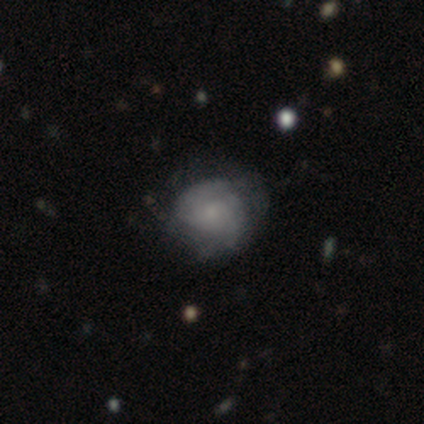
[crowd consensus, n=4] smooth 50%, featured or disk 25%, star or artifact 25%. Down the decision tree: how rounded — round (100%); merging — none (67%).